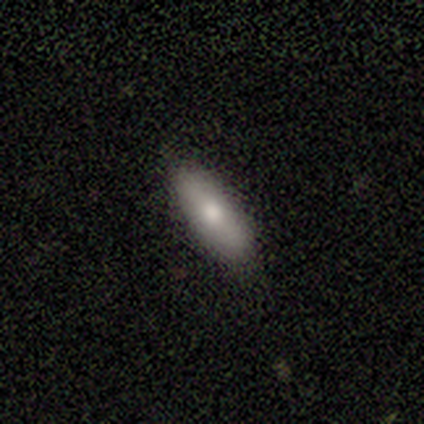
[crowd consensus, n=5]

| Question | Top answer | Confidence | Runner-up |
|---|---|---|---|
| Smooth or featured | smooth | 80% | featured or disk (20%) |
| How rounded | in between | 50% | tied: cigar-shaped (50%) |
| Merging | none | 80% | minor disturbance (20%) |